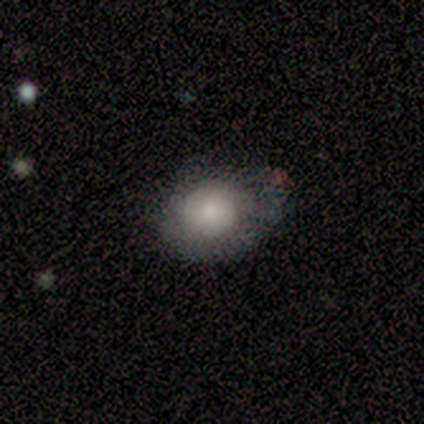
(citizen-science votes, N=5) This appears to be a smooth galaxy with no disk features (60%) that is in between round and cigar-shaped (100%). Merging: major disturbance (50%).